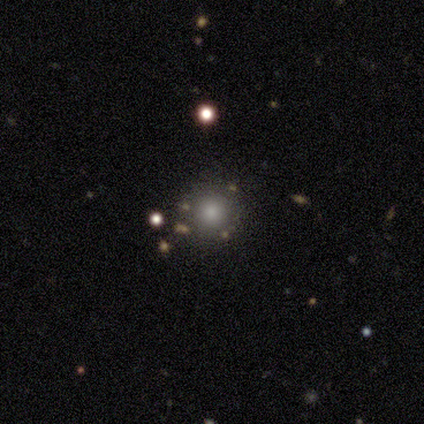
This is likely a smooth galaxy (68%). How rounded: clearly round (92%). Merging: clearly none (90%).